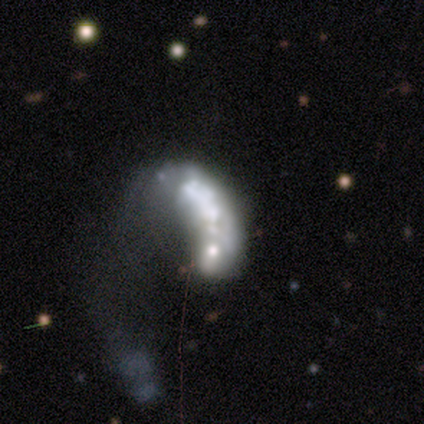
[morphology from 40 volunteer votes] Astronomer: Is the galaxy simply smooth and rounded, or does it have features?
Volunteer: featured or disk — 70%.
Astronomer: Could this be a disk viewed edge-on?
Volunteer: no — 100%.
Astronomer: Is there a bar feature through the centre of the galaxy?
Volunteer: no — 86%.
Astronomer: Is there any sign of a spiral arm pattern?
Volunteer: no — 79%.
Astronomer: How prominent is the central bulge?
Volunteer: none — 36% (runner-up: moderate, 25%).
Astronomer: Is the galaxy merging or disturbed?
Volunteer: major disturbance — 54%.